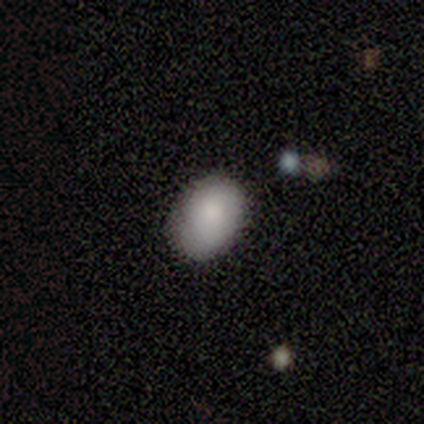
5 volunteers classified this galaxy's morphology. Smooth or featured? 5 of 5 (100%) said smooth. How rounded? 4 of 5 (80%) said in between. Merging? 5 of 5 (100%) said none.